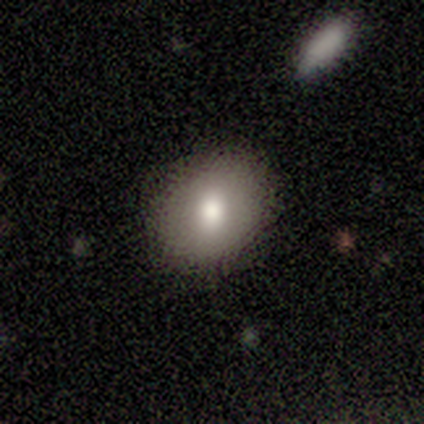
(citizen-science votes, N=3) Morphology: type=smooth (67%); roundness=round (100%); merging=none (100%).